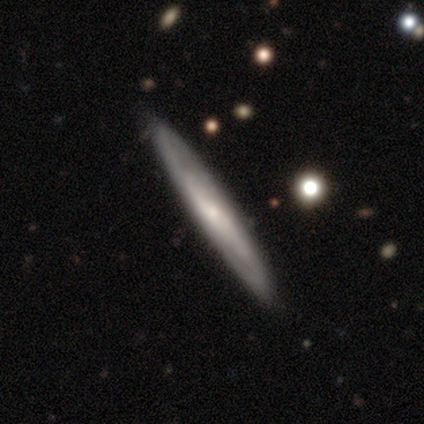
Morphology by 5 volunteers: type=smooth (60%); roundness=cigar-shaped (100%); merging=none (100%).